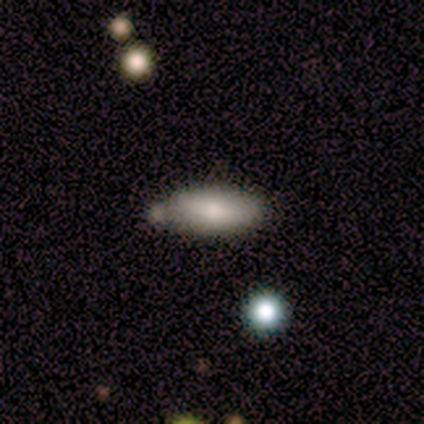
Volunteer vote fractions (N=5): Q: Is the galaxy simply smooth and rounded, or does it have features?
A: smooth — 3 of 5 (60%).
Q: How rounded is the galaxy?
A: in between — 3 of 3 (100%).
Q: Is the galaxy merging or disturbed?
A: none — 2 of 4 (50%).